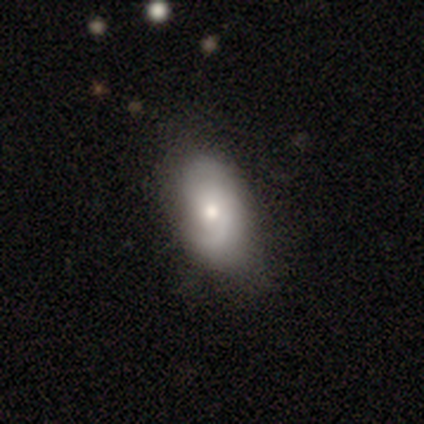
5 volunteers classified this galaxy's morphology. This is clearly a smooth galaxy (80%). How rounded: clearly in between (100%). Merging: likely none (60%).